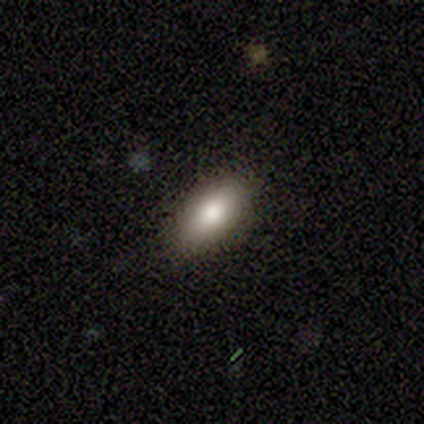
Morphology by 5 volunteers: This appears to be a smooth galaxy with no disk features (60%) that is in between round and cigar-shaped (100%). Merging: none (100%).